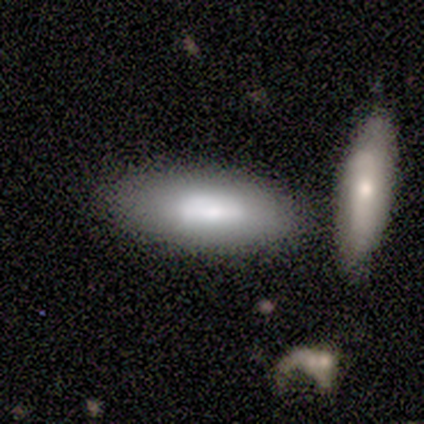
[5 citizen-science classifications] Q: Smooth or featured?
A: smooth (80%); runner-up: featured or disk (20%)
Q: How rounded?
A: in between (75%); runner-up: cigar-shaped (25%)
Q: Merging?
A: none (80%); runner-up: merger (20%)